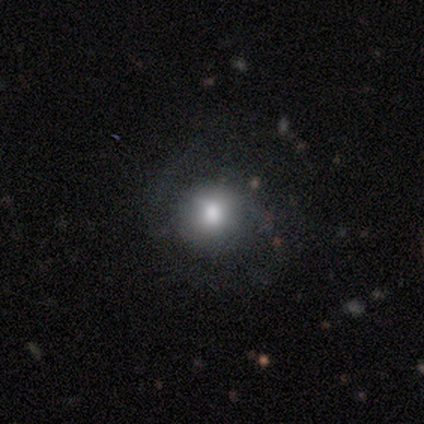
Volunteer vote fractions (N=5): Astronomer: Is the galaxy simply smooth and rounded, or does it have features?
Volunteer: featured or disk — 60% (runner-up: star or artifact, 40%).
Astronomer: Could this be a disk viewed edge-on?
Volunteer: no — 100%.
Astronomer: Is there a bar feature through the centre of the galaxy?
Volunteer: no — 100%.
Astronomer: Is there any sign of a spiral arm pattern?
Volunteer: yes — 67%.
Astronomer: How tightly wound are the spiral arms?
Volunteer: medium — 50%, tied with loose at 50%.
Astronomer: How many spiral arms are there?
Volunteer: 2 — 100%.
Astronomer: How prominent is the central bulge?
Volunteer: large — 67%.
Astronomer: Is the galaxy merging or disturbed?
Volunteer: none — 33%, tied with minor disturbance and major disturbance at 33%.